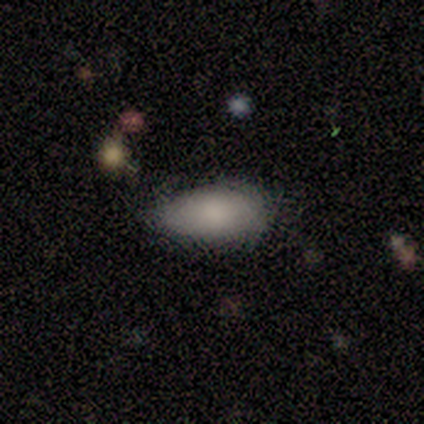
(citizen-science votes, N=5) Smooth or featured: smooth — 100%
How rounded: in between — 80% (round — 20%)
Merging: none — 60% (minor disturbance — 40%)